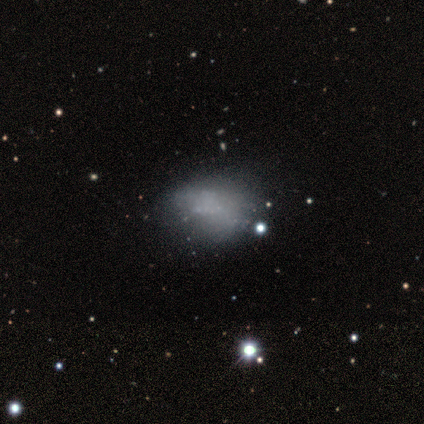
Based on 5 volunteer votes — smooth_or_featured: smooth (p=0.40) [tied with: featured or disk p=0.40]
how_rounded: round (p=0.50) [tied with: in between p=0.50]
merging: none (p=0.75) [alt: minor disturbance p=0.25]